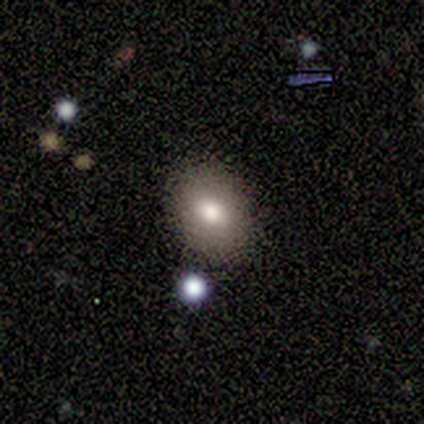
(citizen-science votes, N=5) Overall: smooth (80%). How rounded: in between (75%). Merging: none (80%).